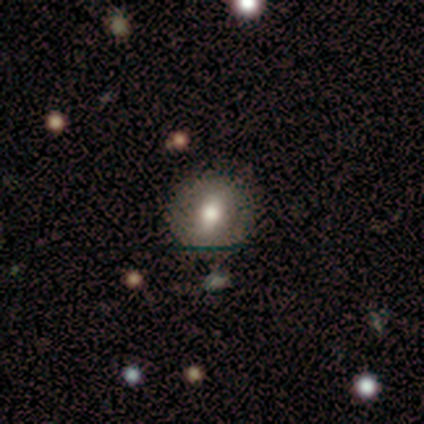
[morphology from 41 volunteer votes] smooth 66%, featured or disk 32%, star or artifact 2%. Down the decision tree: how rounded — round (89%); merging — none (72%).